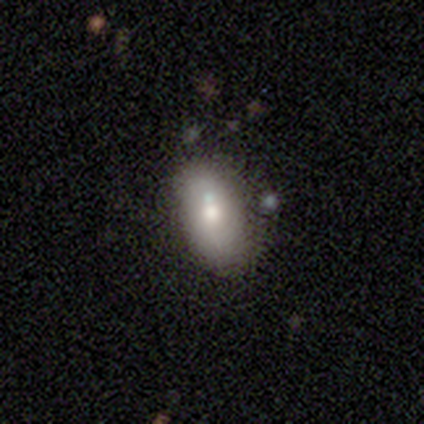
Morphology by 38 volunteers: Smooth or featured? 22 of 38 (58%) said smooth. How rounded? 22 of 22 (100%) said in between. Merging? 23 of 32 (72%) said none.